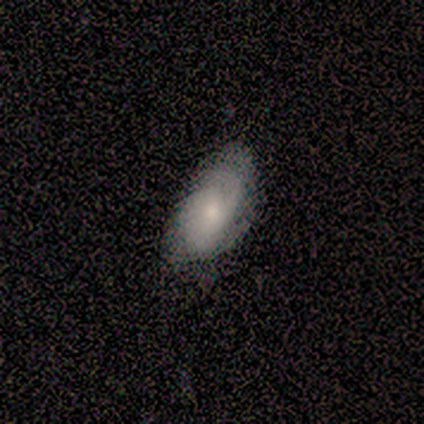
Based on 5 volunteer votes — Volunteers were most divided on "merging": none: 50%, minor disturbance: 25%, major disturbance: 25%, merger: 0%. More confident: how rounded — in between (100%); smooth or featured — smooth (60%).